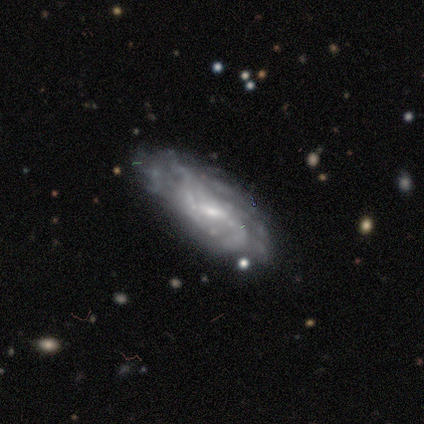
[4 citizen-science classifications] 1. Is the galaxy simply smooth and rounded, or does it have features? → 75% featured or disk, 25% star or artifact, 0% smooth.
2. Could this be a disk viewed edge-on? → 100% no, 0% yes.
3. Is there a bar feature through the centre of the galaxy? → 67% weak, 33% strong, 0% no.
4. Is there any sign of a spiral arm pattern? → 67% no, 33% yes.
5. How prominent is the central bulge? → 67% small, 33% moderate, 0% dominant, 0% large, 0% none.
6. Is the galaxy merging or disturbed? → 67% none, 33% major disturbance, 0% minor disturbance, 0% merger.